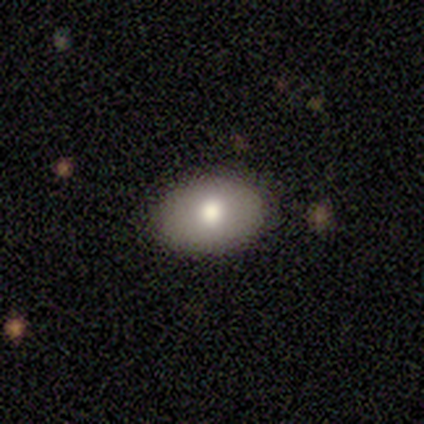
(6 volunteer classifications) Smooth or featured? smooth (67%)
How rounded? in between (100%)
Merging? none (100%)